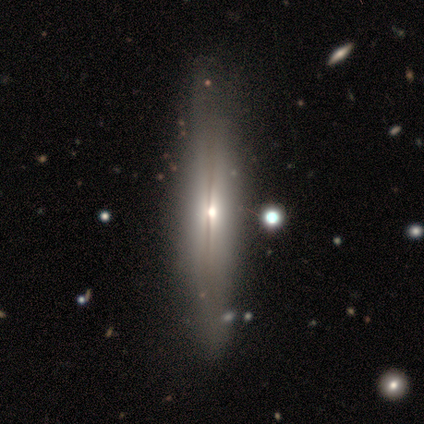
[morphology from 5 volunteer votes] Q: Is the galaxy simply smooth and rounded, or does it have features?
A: featured or disk — 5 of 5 (100%).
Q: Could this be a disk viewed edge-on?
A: yes — 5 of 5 (100%).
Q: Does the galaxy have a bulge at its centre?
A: rounded — 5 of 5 (100%).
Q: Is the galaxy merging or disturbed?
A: none — 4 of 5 (80%).